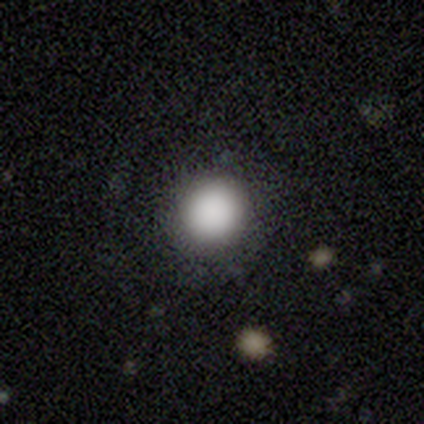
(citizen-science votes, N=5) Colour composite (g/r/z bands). It shows a smooth galaxy with no disk features (100%) that is round (100%). Merging: none (100%).